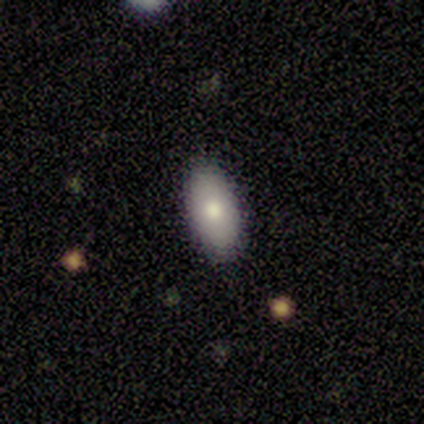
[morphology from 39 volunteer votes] Overall: smooth (67%). How rounded: in between (96%). Merging: none (77%).